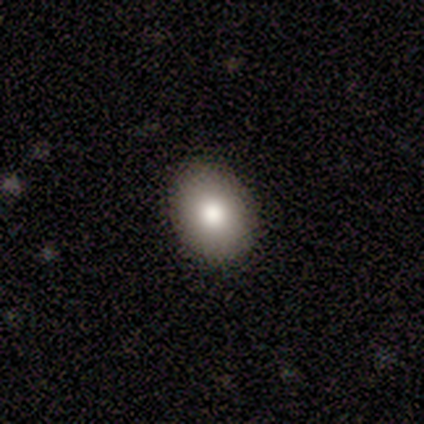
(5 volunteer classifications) A smooth galaxy with no disk features (100%) that is in between round and cigar-shaped (60%). Merging: none (100%).